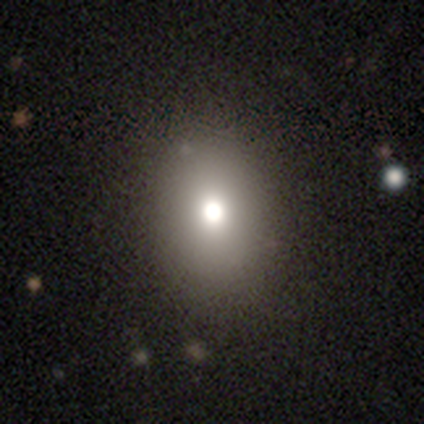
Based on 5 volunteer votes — This is clearly a smooth galaxy (80%). How rounded: possibly round (50%, tied with in between). Merging: likely none (75%).